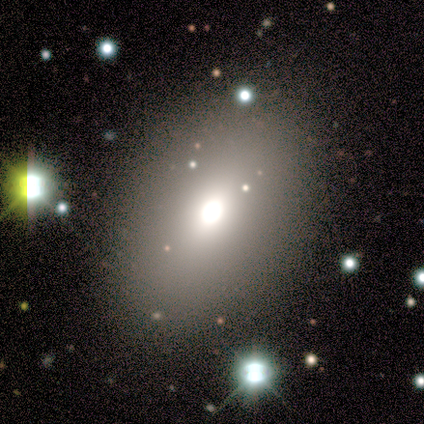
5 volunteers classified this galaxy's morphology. smooth_or_featured: smooth (p=1.00)
how_rounded: in between (p=1.00)
merging: none (p=1.00)